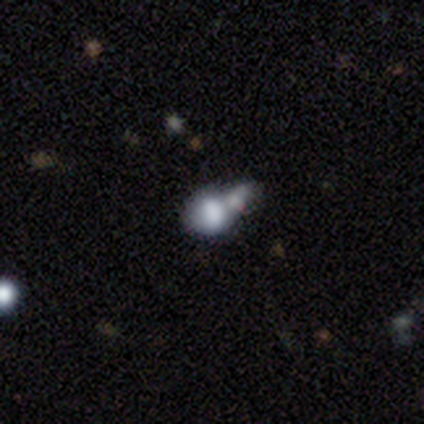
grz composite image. It shows a smooth galaxy with no disk features (54%) that is round (67%). Merging: merger (68%).